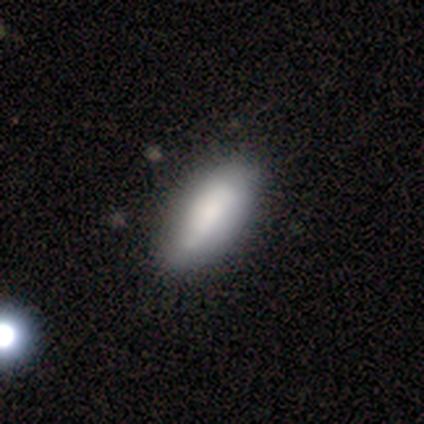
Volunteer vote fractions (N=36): A smooth galaxy with no disk features (78%) that is in between round and cigar-shaped (71%). Merging: none (43%).